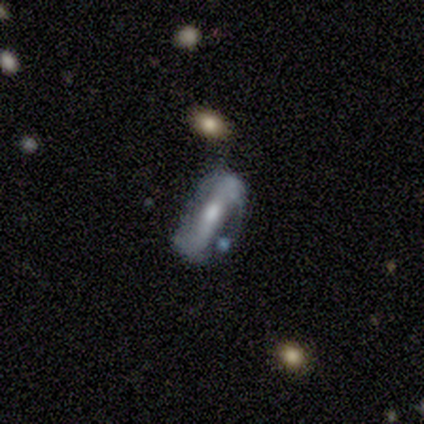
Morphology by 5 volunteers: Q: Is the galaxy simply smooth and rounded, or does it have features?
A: featured or disk — 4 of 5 (80%).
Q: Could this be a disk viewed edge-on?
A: no — 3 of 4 (75%).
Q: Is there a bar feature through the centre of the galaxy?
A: strong — 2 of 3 (67%).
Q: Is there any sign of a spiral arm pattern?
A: yes — 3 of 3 (100%).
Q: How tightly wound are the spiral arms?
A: tight — 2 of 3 (67%).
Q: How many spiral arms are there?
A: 2 — 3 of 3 (100%).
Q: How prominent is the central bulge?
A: moderate — 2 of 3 (67%).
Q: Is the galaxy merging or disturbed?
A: none — 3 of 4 (75%).